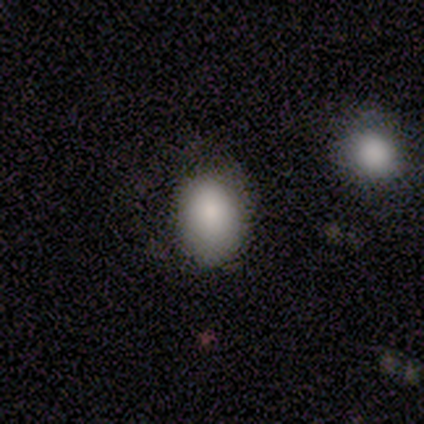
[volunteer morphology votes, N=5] type=smooth (80%); roundness=round (75%); merging=none (80%).